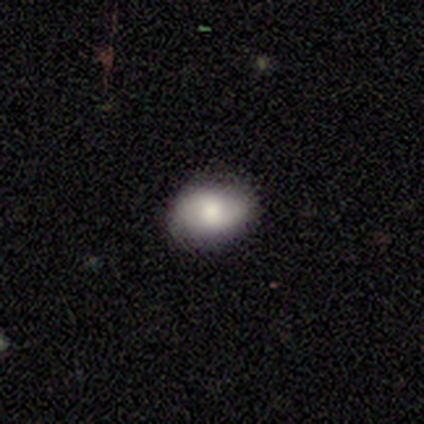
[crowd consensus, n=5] A smooth galaxy with no disk features (80%) that is in between round and cigar-shaped (100%).

Vote fractions:
- Smooth or featured? smooth: 80% / star or artifact: 20% / featured or disk: 0%
- How rounded? in between: 100% / round: 0% / cigar-shaped: 0%
- Merging? none: 75% / minor disturbance: 25% / major disturbance: 0% / merger: 0%